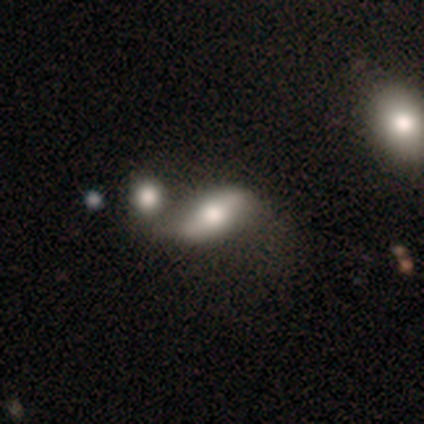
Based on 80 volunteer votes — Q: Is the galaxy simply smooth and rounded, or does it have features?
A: smooth — 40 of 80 (50%).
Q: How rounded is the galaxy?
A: in between — 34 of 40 (85%).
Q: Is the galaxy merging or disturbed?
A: merger — 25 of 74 (34%).